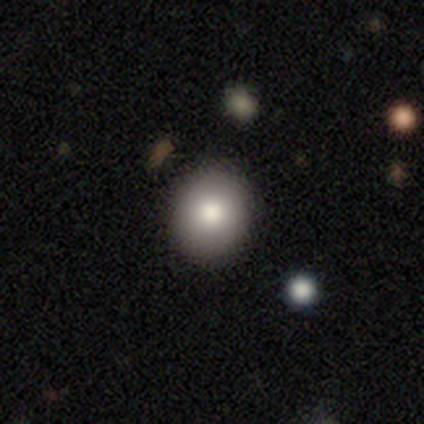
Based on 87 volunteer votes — Smooth or featured?
  - smooth: 80% *
  - featured or disk: 11%
  - star or artifact: 8%
How rounded?
  - round: 84% *
  - in between: 16%
  - cigar-shaped: 0%
Merging?
  - none: 90% *
  - minor disturbance: 8%
  - major disturbance: 2%
  - merger: 0%